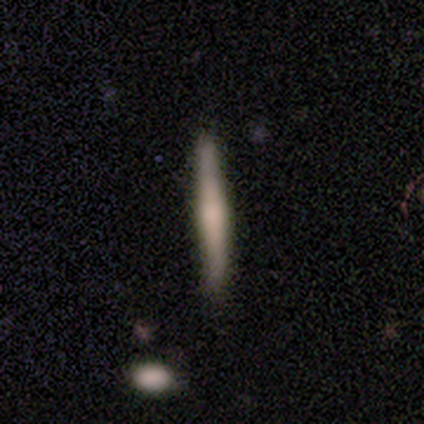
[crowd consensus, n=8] Morphology: type=featured or disk (62%); edge-on=yes (100%); edge-on bulge=rounded (60%); merging=none (88%).